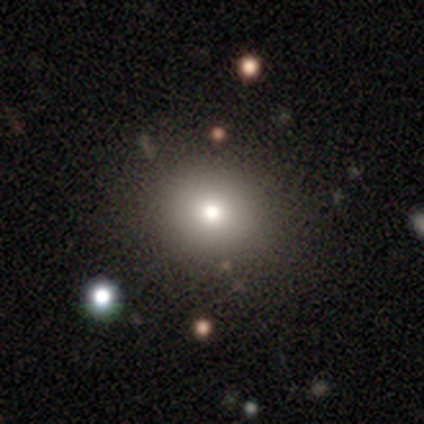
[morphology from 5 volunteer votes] Overall: smooth (80%). How rounded: round (75%). Merging: none (75%).